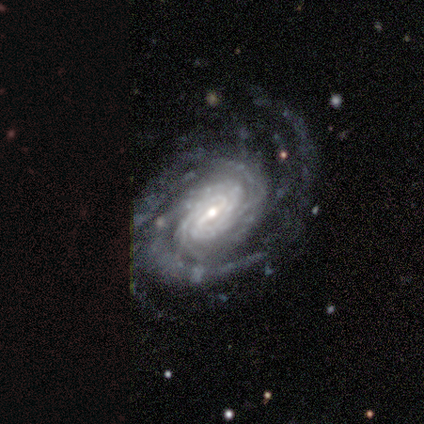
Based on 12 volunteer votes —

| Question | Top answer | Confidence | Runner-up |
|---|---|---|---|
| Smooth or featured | featured or disk | 92% | star or artifact (8%) |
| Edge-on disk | no | 100% | — |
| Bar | weak | 45% | strong (36%) |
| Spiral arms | yes | 100% | — |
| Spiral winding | tight | 73% | medium (18%) |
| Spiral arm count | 2 | 27% | tied: 3 (27%), can't tell (27%) |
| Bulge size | small | 64% | moderate (27%) |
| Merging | none | 82% | minor disturbance (9%) |